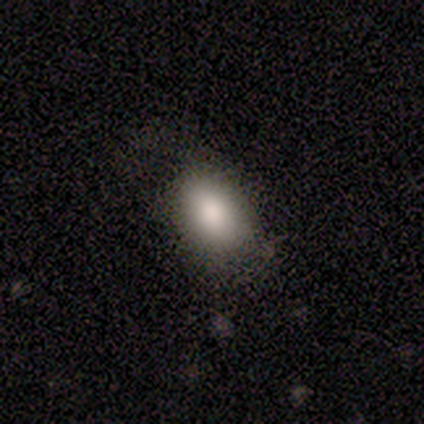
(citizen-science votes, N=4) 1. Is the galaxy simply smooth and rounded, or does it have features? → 100% smooth, 0% featured or disk, 0% star or artifact.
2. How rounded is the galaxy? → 100% in between, 0% round, 0% cigar-shaped.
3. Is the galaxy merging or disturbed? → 75% none, 25% major disturbance, 0% minor disturbance, 0% merger.